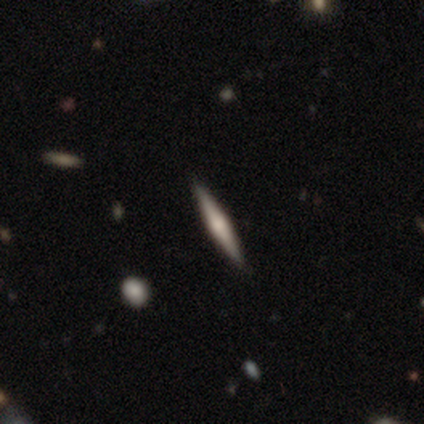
Volunteers were most divided on "smooth or featured" (2-way tie): smooth: 40%, featured or disk: 40%, star or artifact: 20%. More confident: how rounded — cigar-shaped (100%); merging — none (100%).